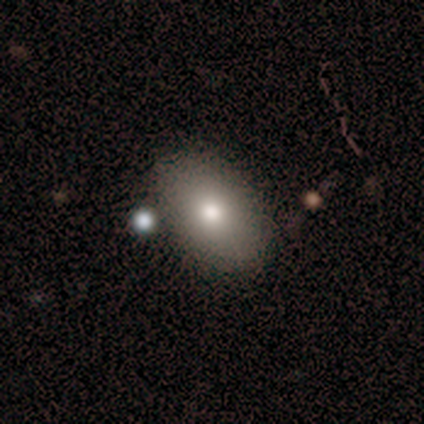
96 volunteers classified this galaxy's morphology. A smooth galaxy with no disk features (76%) that is in between round and cigar-shaped (86%).

Vote fractions:
- Smooth or featured? smooth: 76% / star or artifact: 12% / featured or disk: 11%
- How rounded? in between: 86% / round: 12% / cigar-shaped: 1%
- Merging? none: 86% / minor disturbance: 7% / major disturbance: 4% / merger: 4%